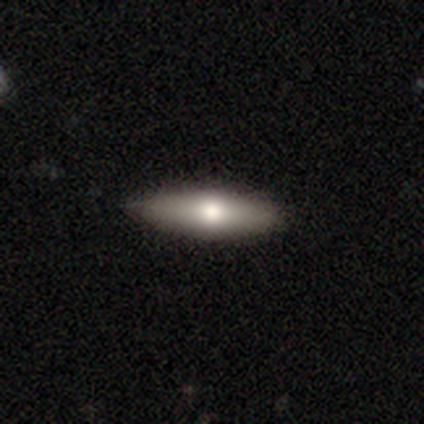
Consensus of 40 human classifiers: Volunteers were most divided on "smooth or featured": smooth: 55%, featured or disk: 42%, star or artifact: 2%. More confident: how rounded — cigar-shaped (59%); merging — none (59%).